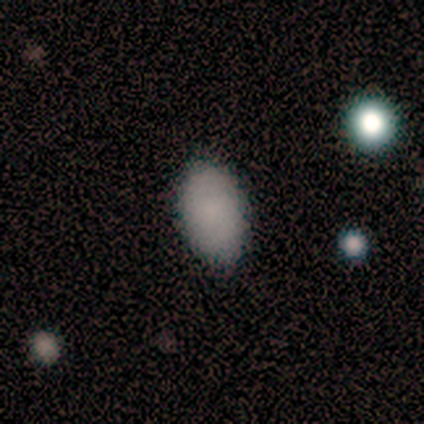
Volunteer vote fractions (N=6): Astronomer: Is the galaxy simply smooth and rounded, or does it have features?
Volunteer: smooth — 83%.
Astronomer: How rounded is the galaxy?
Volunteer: in between — 100%.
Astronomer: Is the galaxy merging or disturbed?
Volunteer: none — 80%.